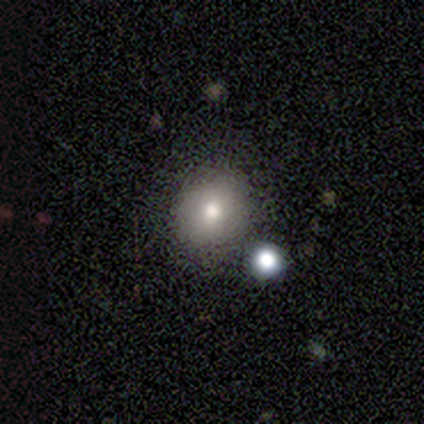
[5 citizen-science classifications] A smooth galaxy with no disk features (100%) that is round (80%).

Vote fractions:
- Smooth or featured? smooth: 100% / featured or disk: 0% / star or artifact: 0%
- How rounded? round: 80% / in between: 20% / cigar-shaped: 0%
- Merging? none: 80% / major disturbance: 20% / minor disturbance: 0% / merger: 0%